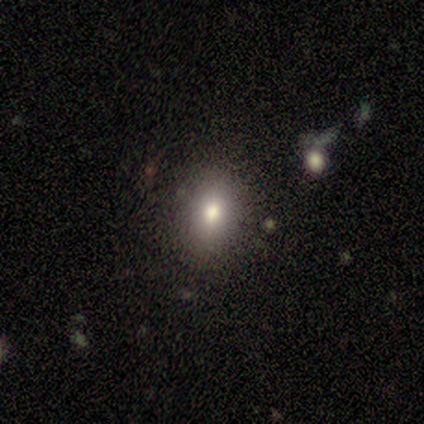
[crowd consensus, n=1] Overall: star or artifact (100%).